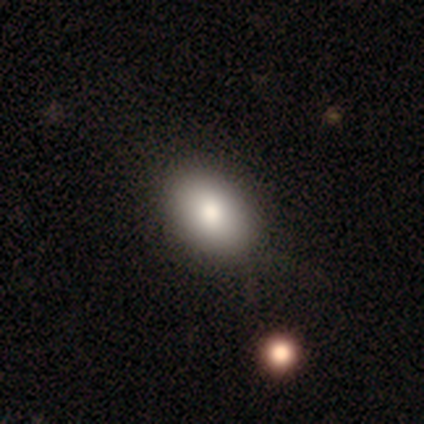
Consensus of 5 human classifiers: Smooth or featured?
  - smooth: 100% *
  - featured or disk: 0%
  - star or artifact: 0%
How rounded?
  - in between: 100% *
  - round: 0%
  - cigar-shaped: 0%
Merging?
  - none: 100% *
  - minor disturbance: 0%
  - major disturbance: 0%
  - merger: 0%